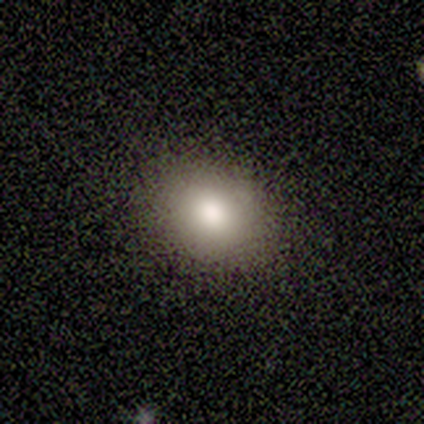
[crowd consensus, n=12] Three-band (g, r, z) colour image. It shows a smooth galaxy with no disk features (92%) that is round (55%). Merging: none (100%).